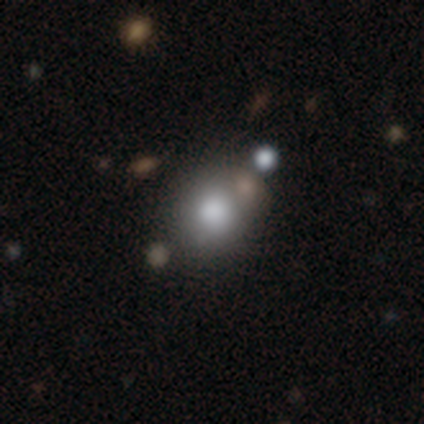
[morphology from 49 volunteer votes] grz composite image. It shows a smooth galaxy with no disk features (69%) that is round (76%). Merging: none (61%).